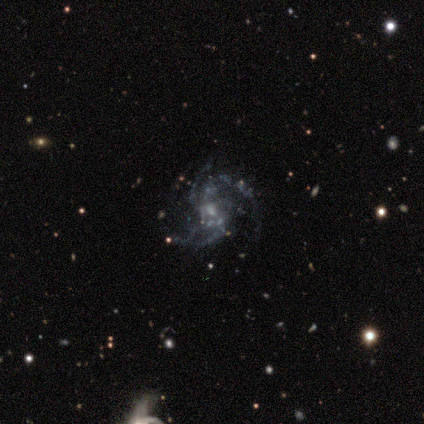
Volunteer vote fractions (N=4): Smooth or featured? 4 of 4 (100%) said featured or disk. Edge-on disk? 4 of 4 (100%) said no. Bar? 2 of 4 (50%, tied with no) said strong. Spiral arms? 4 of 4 (100%) said yes. Spiral winding? 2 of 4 (50%) said tight. Spiral arm count? 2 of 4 (50%) said 4. Bulge size? 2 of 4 (50%, tied with small) said moderate. Merging? 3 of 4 (75%) said none.